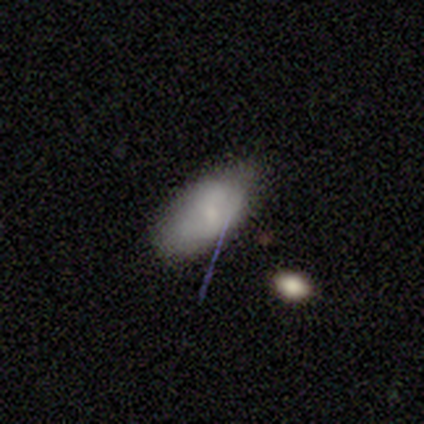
This appears to be a smooth galaxy with no disk features (67%) that is in between round and cigar-shaped (100%). Merging: none (64%).